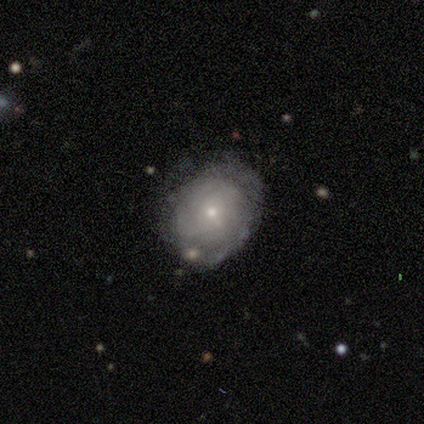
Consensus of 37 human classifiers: Volunteers were most divided on "spiral arms": yes: 55%, no: 45%. More confident: edge-on disk — no (100%); bar — no (95%); spiral arm count — can't tell (83%); bulge size — small (77%); merging — none (66%); smooth or featured — featured or disk (59%); spiral winding — tight (50%).